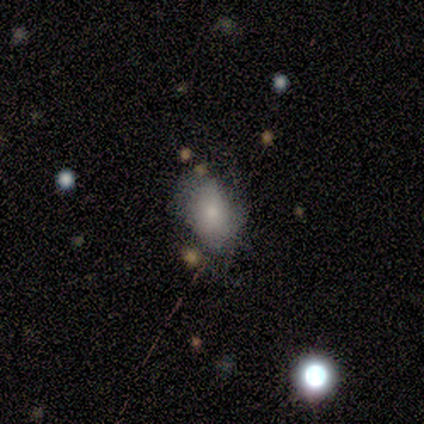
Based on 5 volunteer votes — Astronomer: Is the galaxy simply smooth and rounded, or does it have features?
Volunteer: smooth — 80%.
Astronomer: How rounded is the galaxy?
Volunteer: round — 50%, tied with in between at 50%.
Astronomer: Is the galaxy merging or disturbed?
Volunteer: none — 40% (runner-up: minor disturbance, 20%).